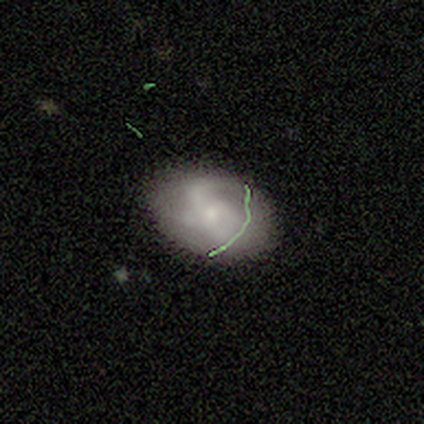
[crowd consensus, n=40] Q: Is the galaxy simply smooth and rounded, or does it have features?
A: featured or disk — 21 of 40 (52%).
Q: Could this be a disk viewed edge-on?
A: no — 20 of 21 (95%).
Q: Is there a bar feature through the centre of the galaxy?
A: no — 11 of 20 (55%).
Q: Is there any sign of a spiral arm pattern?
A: yes — 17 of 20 (85%).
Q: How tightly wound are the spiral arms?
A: tight — 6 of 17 (35%, tied with medium).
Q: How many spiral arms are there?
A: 2 — 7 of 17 (41%).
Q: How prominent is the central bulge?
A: small — 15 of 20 (75%).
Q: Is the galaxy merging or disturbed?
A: none — 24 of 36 (67%).